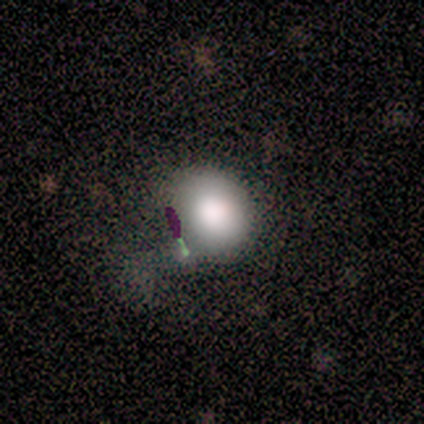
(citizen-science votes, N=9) Q: Smooth or featured?
A: smooth (67%); runner-up: featured or disk (22%)
Q: How rounded?
A: round (83%); runner-up: in between (17%)
Q: Merging?
A: none (62%); runner-up: minor disturbance (25%)